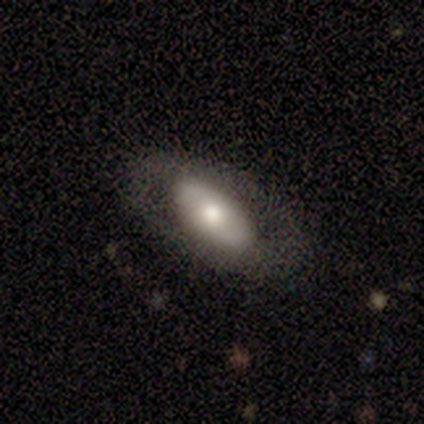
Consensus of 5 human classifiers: A smooth galaxy with no disk features (60%) that is in between round and cigar-shaped (100%).

Vote fractions:
- Smooth or featured? smooth: 60% / featured or disk: 40% / star or artifact: 0%
- How rounded? in between: 100% / round: 0% / cigar-shaped: 0%
- Merging? none: 60% / minor disturbance: 20% / major disturbance: 20% / merger: 0%